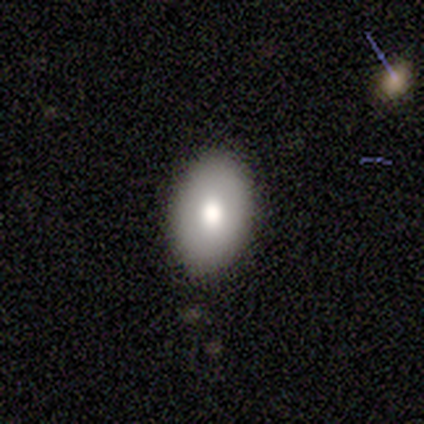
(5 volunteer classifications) Overall: smooth (60%; star or artifact 40%). How rounded: in between (67%; round 33%). Merging: none (67%; minor disturbance 33%).